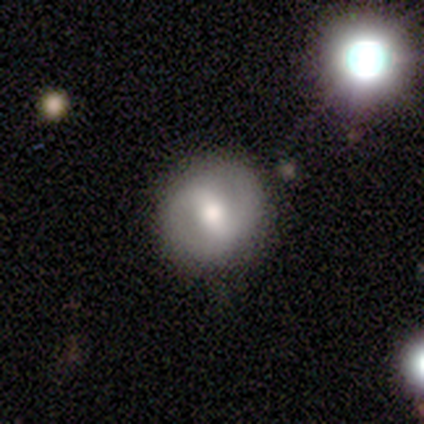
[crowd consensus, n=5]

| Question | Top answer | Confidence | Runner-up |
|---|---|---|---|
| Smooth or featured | featured or disk | 60% | smooth (20%) |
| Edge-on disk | no | 100% | — |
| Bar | weak | 67% | strong (33%) |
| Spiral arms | no | 67% | yes (33%) |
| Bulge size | moderate | 100% | — |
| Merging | none | 100% | — |